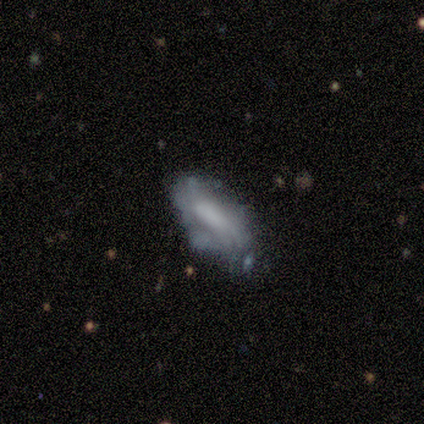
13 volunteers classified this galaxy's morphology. Q: Smooth or featured?
A: smooth (62%); runner-up: featured or disk (38%)
Q: How rounded?
A: in between (62%); runner-up: cigar-shaped (25%)
Q: Merging?
A: none (62%); runner-up: minor disturbance (23%)